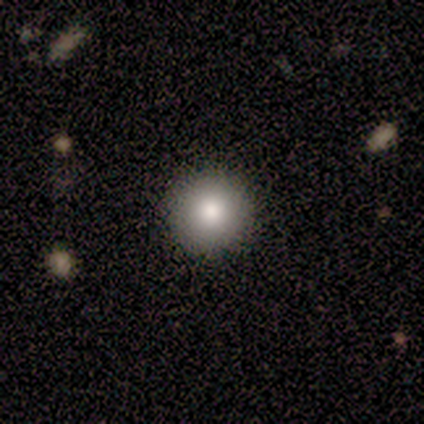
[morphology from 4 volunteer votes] Volunteers were most divided on "smooth or featured": smooth: 50%, featured or disk: 25%, star or artifact: 25%. More confident: how rounded — round (100%); merging — none (100%).